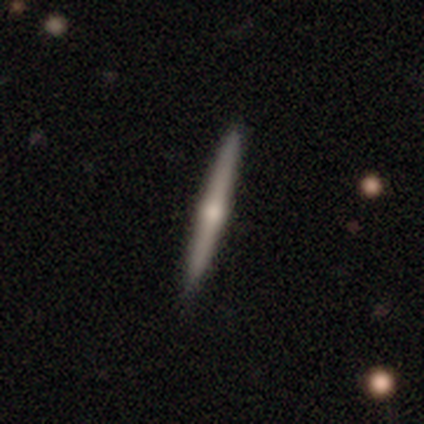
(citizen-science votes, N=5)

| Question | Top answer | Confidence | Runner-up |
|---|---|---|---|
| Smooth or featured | featured or disk | 60% | smooth (40%) |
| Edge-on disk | yes | 100% | — |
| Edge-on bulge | rounded | 100% | — |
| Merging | none | 100% | — |